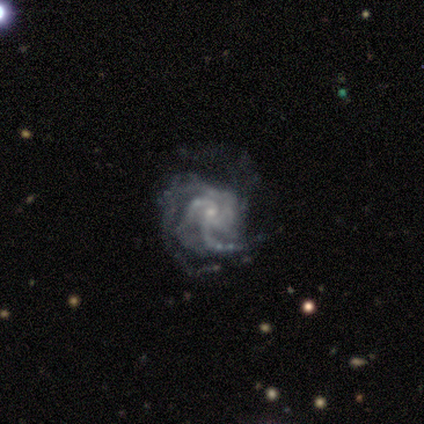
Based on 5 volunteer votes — smooth-or-featured: featured or disk: 100% | smooth: 0% | star or artifact: 0%
  disk-edge-on: no: 100% | yes: 0%
    bar: no: 80% | weak: 20% | strong: 0%
    has-spiral-arms: yes: 100% | no: 0%
      spiral-winding: tight: 60% | medium: 40% | loose: 0%
      spiral-arm-count: 4: 40% | 3: 20% | more than 4: 20% | can't tell: 20% | 1: 0% | 2: 0%
    bulge-size: small: 100% | dominant: 0% | large: 0% | moderate: 0% | none: 0%
  merging: none: 60% | major disturbance: 40% | minor disturbance: 0% | merger: 0%